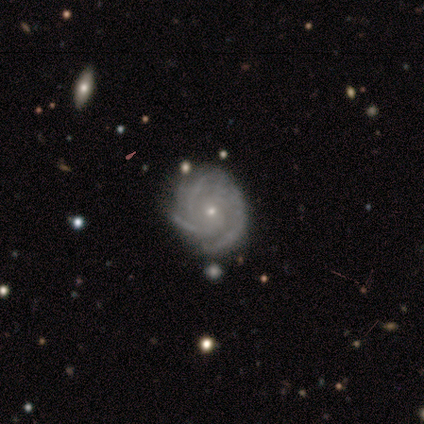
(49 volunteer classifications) Smooth or featured?
  - featured or disk: 92% *
  - star or artifact: 6%
  - smooth: 2%
Edge-on disk?
  - no: 98% *
  - yes: 2%
Bar?
  - no: 80% *
  - weak: 16%
  - strong: 5%
Spiral arms?
  - yes: 98% *
  - no: 2%
Spiral winding?
  - tight: 74% *
  - medium: 23%
  - loose: 2%
Spiral arm count?
  - 3: 51% *
  - 4: 21%
  - can't tell: 19%
  - more than 4: 9%
  - 1: 0%
  - 2: 0%
Bulge size?
  - small: 84% *
  - moderate: 16%
  - dominant: 0%
  - large: 0%
  - none: 0%
Merging?
  - none: 87% *
  - minor disturbance: 11%
  - major disturbance: 2%
  - merger: 0%